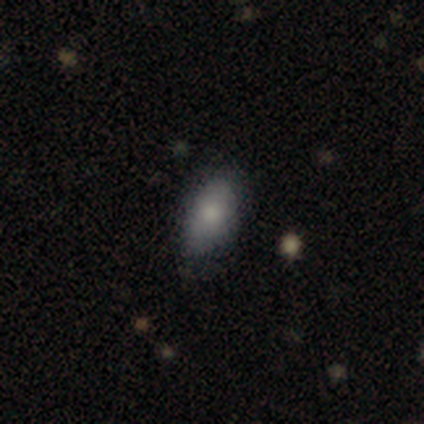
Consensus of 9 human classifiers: Smooth or featured: smooth — 56% (featured or disk — 22%)
How rounded: in between — 100%
Merging: none — 57% (minor disturbance — 29%)